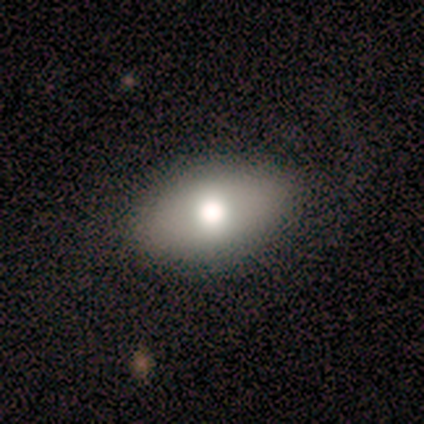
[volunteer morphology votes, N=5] This is likely a smooth galaxy (60%). How rounded: likely round (67%). Merging: clearly none (80%).